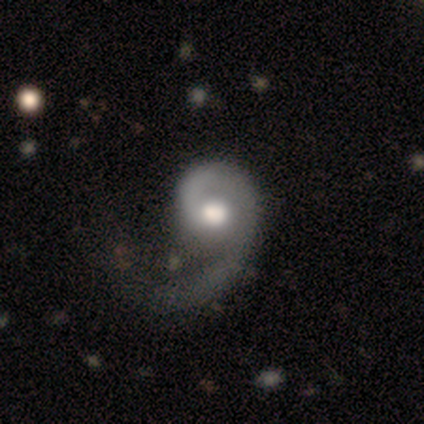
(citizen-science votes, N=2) Q: Smooth or featured?
A: featured or disk (100%)
Q: Edge-on disk?
A: no (100%)
Q: Bar?
A: no (100%)
Q: Spiral arms?
A: yes (100%)
Q: Spiral winding?
A: medium (50%); tied with: loose (50%)
Q: Spiral arm count?
A: 1 (100%)
Q: Bulge size?
A: dominant (50%); tied with: large (50%)
Q: Merging?
A: none (100%)